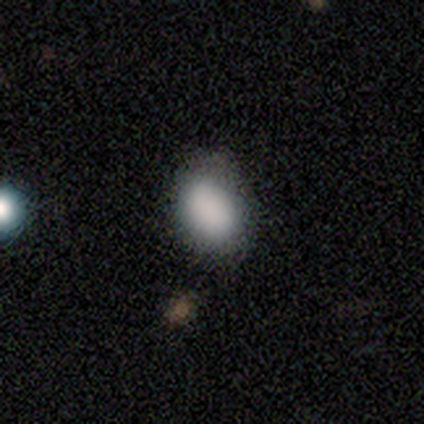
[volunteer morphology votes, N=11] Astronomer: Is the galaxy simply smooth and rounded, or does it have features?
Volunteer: smooth — 91%.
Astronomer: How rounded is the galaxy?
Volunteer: in between — 70%.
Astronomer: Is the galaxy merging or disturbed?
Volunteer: none — 60%.